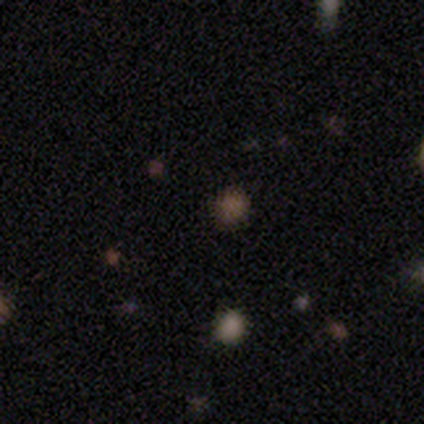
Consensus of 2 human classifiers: Smooth or featured: smooth — 50% (tied with star or artifact — 50%)
How rounded: round — 100%
Merging: none — 100%